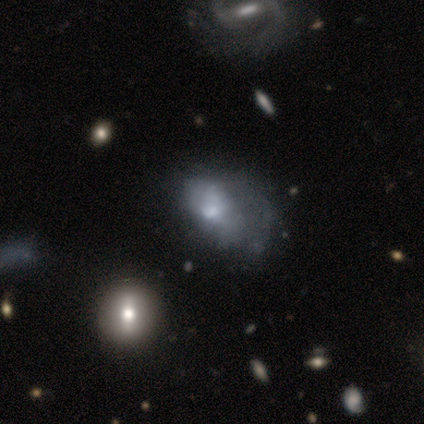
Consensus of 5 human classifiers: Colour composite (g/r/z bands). It shows a smooth galaxy with no disk features (40%, tied with star or artifact) that is round (50%, tied with in between). Merging: major disturbance (100%).